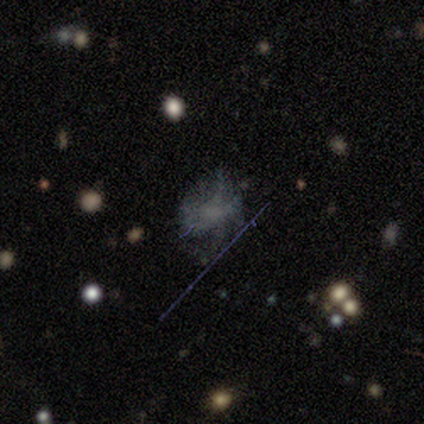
Smooth or featured? smooth (40%, tied with star or artifact)
How rounded? in between (100%)
Merging? none (67%)